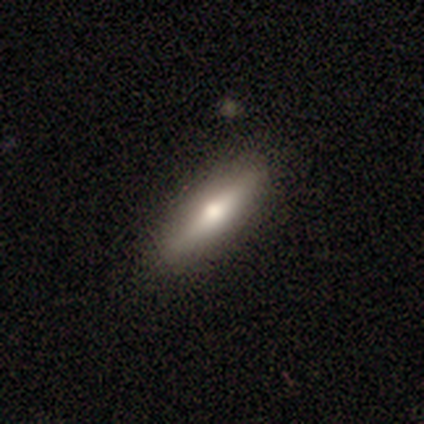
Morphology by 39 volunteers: smooth-or-featured: smooth: 62% | featured or disk: 33% | star or artifact: 5%
  how-rounded: cigar-shaped: 62% | in between: 38% | round: 0%
  merging: none: 92% | minor disturbance: 5% | major disturbance: 3% | merger: 0%